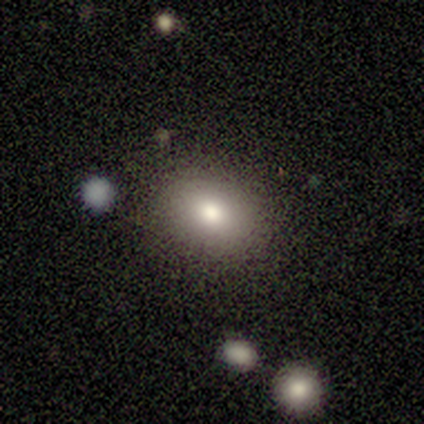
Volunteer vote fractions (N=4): smooth_or_featured: smooth (p=1.00)
how_rounded: in between (p=0.75) [alt: round p=0.25]
merging: none (p=0.75) [alt: major disturbance p=0.25]